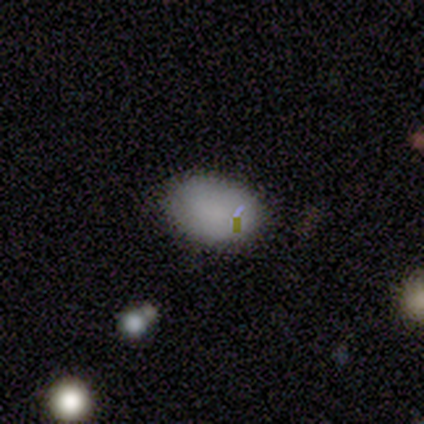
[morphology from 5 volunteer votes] smooth_or_featured: smooth (p=0.80) [alt: star or artifact p=0.20]
how_rounded: in between (p=1.00)
merging: none (p=1.00)